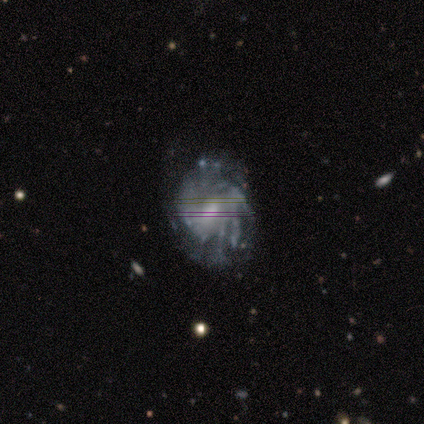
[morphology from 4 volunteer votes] Smooth or featured? 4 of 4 (100%) said featured or disk. Edge-on disk? 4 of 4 (100%) said no. Bar? 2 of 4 (50%, tied with no) said weak. Spiral arms? 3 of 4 (75%) said yes. Spiral winding? 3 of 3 (100%) said tight. Spiral arm count? 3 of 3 (100%) said can't tell. Bulge size? 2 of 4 (50%, tied with small) said moderate. Merging? 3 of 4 (75%) said minor disturbance.